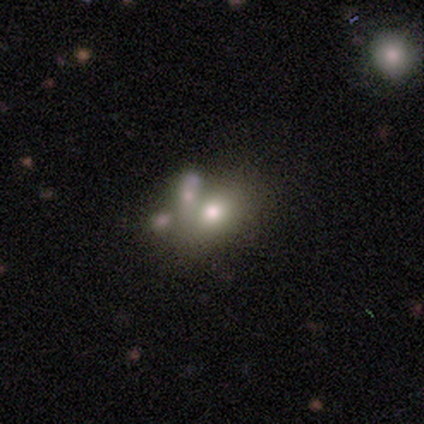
smooth_or_featured: smooth (p=0.60) [alt: featured or disk p=0.40]
how_rounded: round (p=0.67) [alt: in between p=0.33]
merging: none (p=0.60) [alt: merger p=0.40]